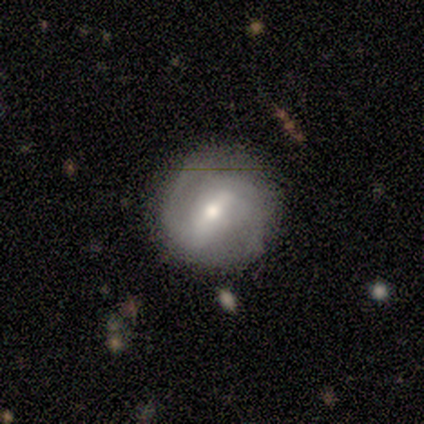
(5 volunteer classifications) A smooth galaxy with no disk features (40%, tied with featured or disk) that is round (50%, tied with in between).

Vote fractions:
- Smooth or featured? smooth: 40% (tied) / featured or disk: 40% (tied) / star or artifact: 20%
- How rounded? round: 50% (tied) / in between: 50% (tied) / cigar-shaped: 0%
- Merging? none: 100% / minor disturbance: 0% / major disturbance: 0% / merger: 0%